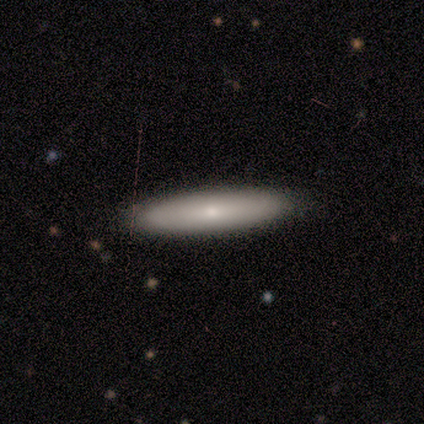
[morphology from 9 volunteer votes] A smooth galaxy with no disk features (78%) that is cigar-shaped (100%).

Vote fractions:
- Smooth or featured? smooth: 78% / featured or disk: 11% / star or artifact: 11%
- How rounded? cigar-shaped: 100% / round: 0% / in between: 0%
- Merging? none: 100% / minor disturbance: 0% / major disturbance: 0% / merger: 0%